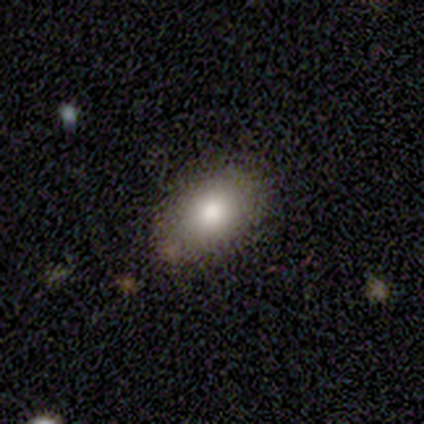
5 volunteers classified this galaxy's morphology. Overall: smooth (60%; featured or disk 20%). How rounded: in between (100%). Merging: none (75%).